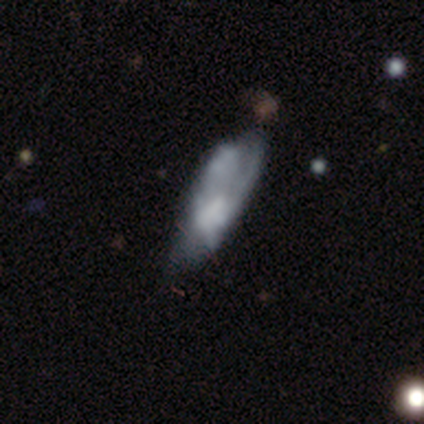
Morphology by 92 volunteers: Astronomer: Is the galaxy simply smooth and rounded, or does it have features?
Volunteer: featured or disk — 53% (runner-up: smooth, 42%).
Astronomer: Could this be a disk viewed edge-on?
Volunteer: no — 84%.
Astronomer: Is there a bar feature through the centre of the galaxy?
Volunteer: no — 78%.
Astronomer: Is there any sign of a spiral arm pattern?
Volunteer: no — 56% (runner-up: yes, 44%).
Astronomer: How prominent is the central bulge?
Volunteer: none — 63%.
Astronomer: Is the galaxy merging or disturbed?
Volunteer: minor disturbance — 33%, tied with merger at 33%.